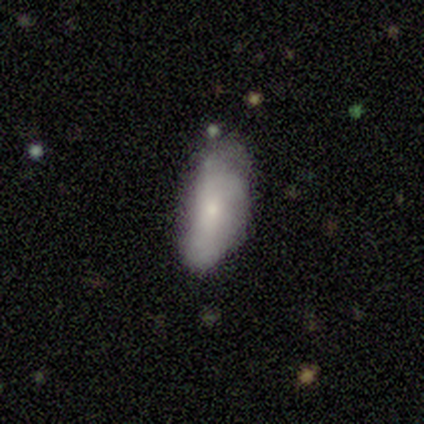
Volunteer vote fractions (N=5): Q: Smooth or featured?
A: smooth (80%); runner-up: featured or disk (20%)
Q: How rounded?
A: in between (100%)
Q: Merging?
A: none (60%); runner-up: minor disturbance (40%)